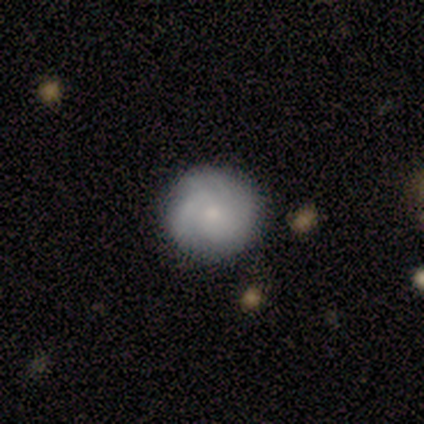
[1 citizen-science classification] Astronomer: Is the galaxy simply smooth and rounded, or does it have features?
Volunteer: smooth — 100%.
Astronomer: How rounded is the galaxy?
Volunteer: round — 100%.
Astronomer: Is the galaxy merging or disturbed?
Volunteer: none — 100%.